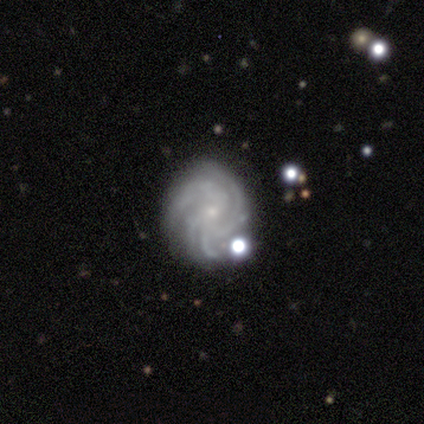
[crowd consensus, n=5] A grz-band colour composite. It shows a featured or disk galaxy (100%) with no bar (100%), 4 (60%) tight (80%) spiral arms (100%) and a small central bulge (100%). Merging: none (60%).